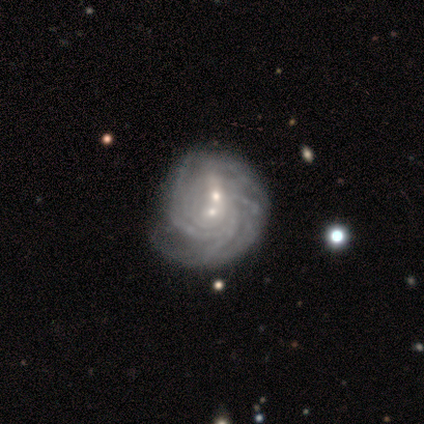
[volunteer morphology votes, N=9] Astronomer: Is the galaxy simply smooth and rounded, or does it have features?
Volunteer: featured or disk — 67%.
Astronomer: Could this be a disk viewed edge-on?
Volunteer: no — 100%.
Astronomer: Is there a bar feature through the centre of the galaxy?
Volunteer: no — 83%.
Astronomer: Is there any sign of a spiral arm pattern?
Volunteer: yes — 100%.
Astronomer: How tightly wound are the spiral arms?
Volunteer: tight — 83%.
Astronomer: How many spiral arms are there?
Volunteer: can't tell — 67%.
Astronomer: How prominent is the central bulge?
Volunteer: small — 83%.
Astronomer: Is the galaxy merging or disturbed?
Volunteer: merger — 38% (runner-up: none, 25%).